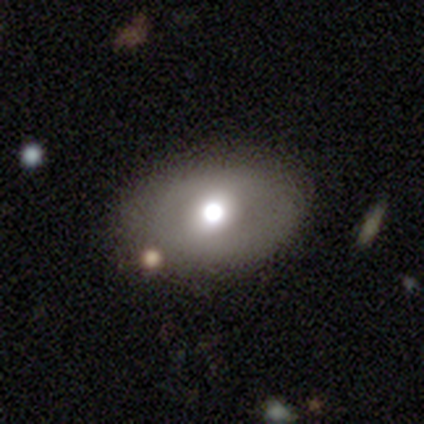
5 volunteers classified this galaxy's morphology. smooth-or-featured: featured or disk: 40% (tied) | star or artifact: 40% (tied) | smooth: 20%
  disk-edge-on: no: 100% | yes: 0%
    bar: strong: 50% (tied) | no: 50% (tied) | weak: 0%
    has-spiral-arms: no: 100% | yes: 0%
    bulge-size: large: 100% | dominant: 0% | moderate: 0% | small: 0% | none: 0%
  merging: none: 100% | minor disturbance: 0% | major disturbance: 0% | merger: 0%